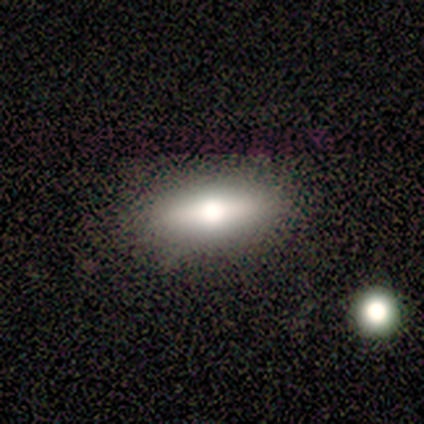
A smooth galaxy with no disk features (57%) that is in between round and cigar-shaped (50%, tied with cigar-shaped). Merging: none (100%).